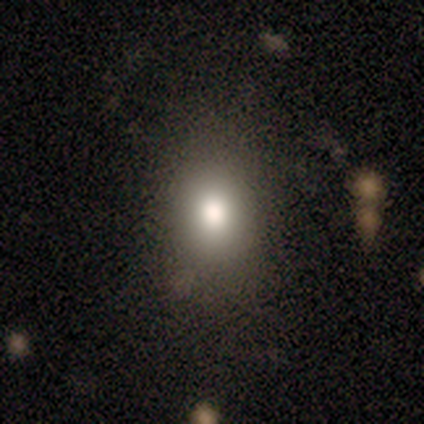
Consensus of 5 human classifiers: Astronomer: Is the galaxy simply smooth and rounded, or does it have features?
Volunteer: smooth — 80%.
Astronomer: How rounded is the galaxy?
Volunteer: round — 75%.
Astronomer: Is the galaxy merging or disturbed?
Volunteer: none — 60% (runner-up: minor disturbance, 40%).